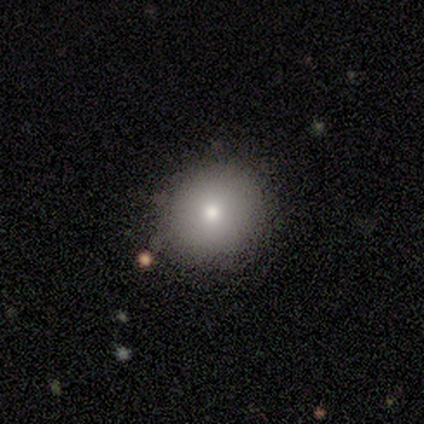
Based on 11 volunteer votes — A smooth galaxy with no disk features (45%) that is round (80%). Merging: none (57%).